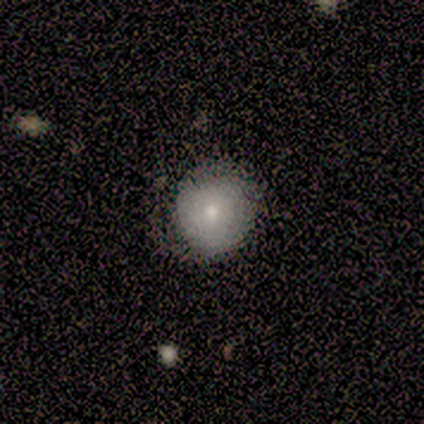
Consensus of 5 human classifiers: smooth-or-featured: smooth: 60% | featured or disk: 40% | star or artifact: 0%
  how-rounded: round: 100% | in between: 0% | cigar-shaped: 0%
  merging: none: 60% | major disturbance: 40% | minor disturbance: 0% | merger: 0%